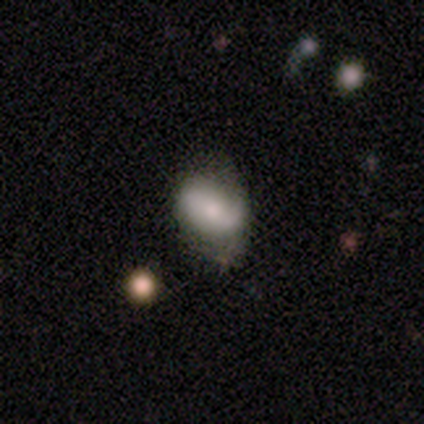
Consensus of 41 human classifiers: Smooth or featured?
  - smooth: 51% *
  - featured or disk: 29%
  - star or artifact: 20%
How rounded?
  - in between: 76% *
  - round: 24%
  - cigar-shaped: 0%
Merging?
  - minor disturbance: 55% *
  - none: 39%
  - major disturbance: 6%
  - merger: 0%